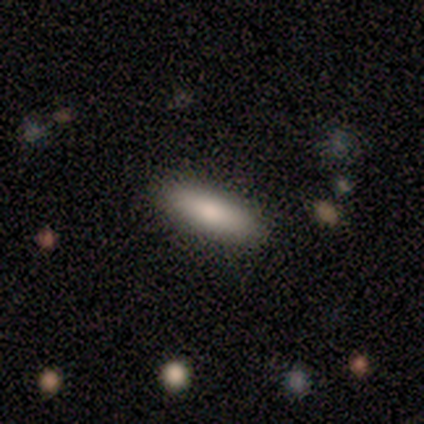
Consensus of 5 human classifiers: Q: Smooth or featured?
A: smooth (100%)
Q: How rounded?
A: in between (80%); runner-up: cigar-shaped (20%)
Q: Merging?
A: none (100%)